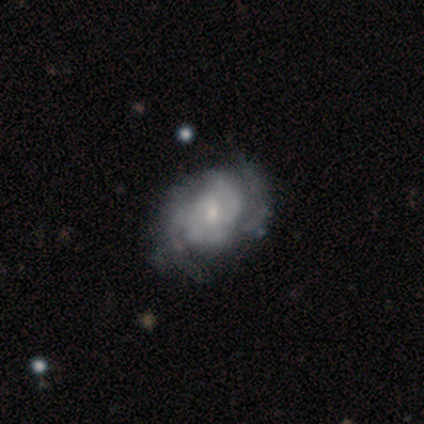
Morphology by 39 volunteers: Smooth or featured? featured or disk (90%)
Edge-on disk? no (97%)
Bar? weak (53%)
Spiral arms? yes (91%)
Spiral winding? tight (58%)
Spiral arm count? can't tell (39%)
Bulge size? small (47%)
Merging? none (44%)